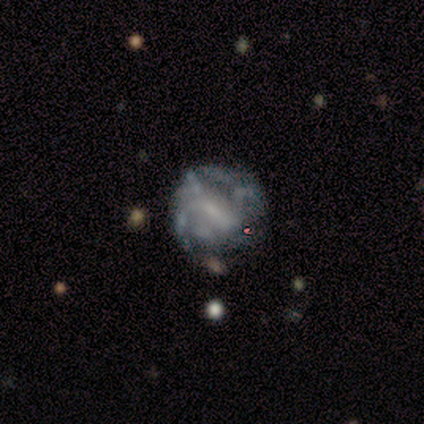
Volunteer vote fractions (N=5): A featured or disk galaxy (100%) with no bar (100%), no spiral arms (100%) and a moderate central bulge (40%, tied with none).

Vote fractions:
- Smooth or featured? featured or disk: 100% / smooth: 0% / star or artifact: 0%
- Edge-on disk? no: 100% / yes: 0%
- Bar? no: 100% / strong: 0% / weak: 0%
- Spiral arms? no: 100% / yes: 0%
- Bulge size? moderate: 40% (tied) / none: 40% (tied) / small: 20% / dominant: 0% / large: 0%
- Merging? none: 60% / minor disturbance: 40% / major disturbance: 0% / merger: 0%